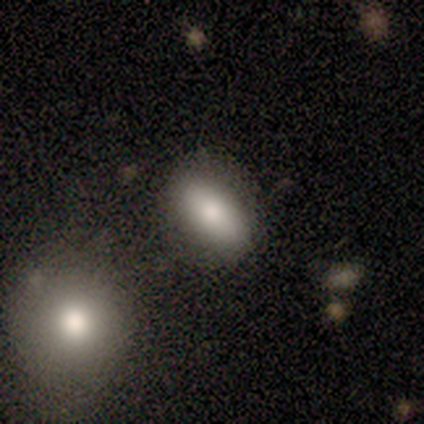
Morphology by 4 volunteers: This is clearly a smooth galaxy (100%). How rounded: likely in between (75%). Merging: likely none (75%).